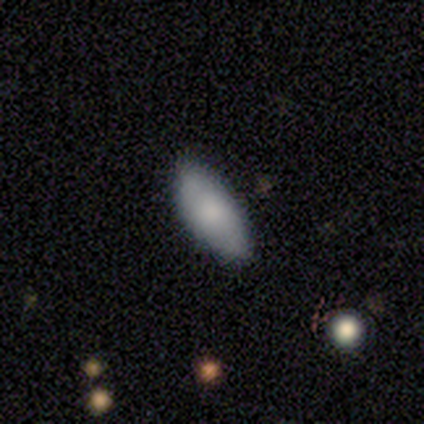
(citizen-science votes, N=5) smooth_or_featured: smooth (p=0.40) [tied with: featured or disk p=0.40]
how_rounded: in between (p=1.00)
merging: none (p=1.00)